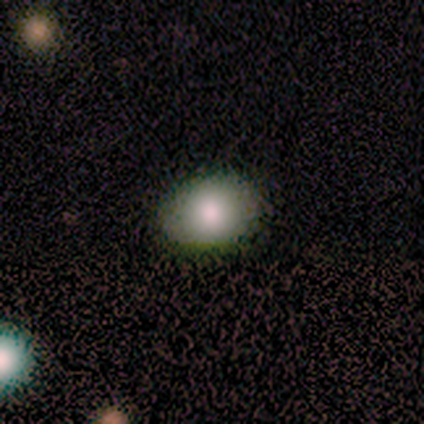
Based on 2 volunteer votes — Morphology: type=smooth (50%, tied with star or artifact); roundness=in between (100%); merging=none (100%).